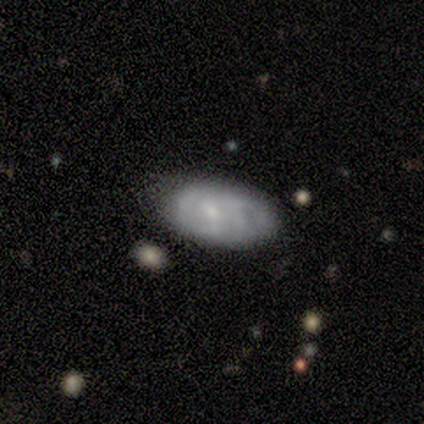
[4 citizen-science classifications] Smooth or featured? 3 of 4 (75%) said featured or disk. Edge-on disk? 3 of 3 (100%) said no. Bar? 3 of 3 (100%) said weak. Spiral arms? 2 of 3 (67%) said yes. Spiral winding? 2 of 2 (100%) said medium. Spiral arm count? 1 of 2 (50%, tied with can't tell) said 3. Bulge size? 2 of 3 (67%) said small. Merging? 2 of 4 (50%) said none.